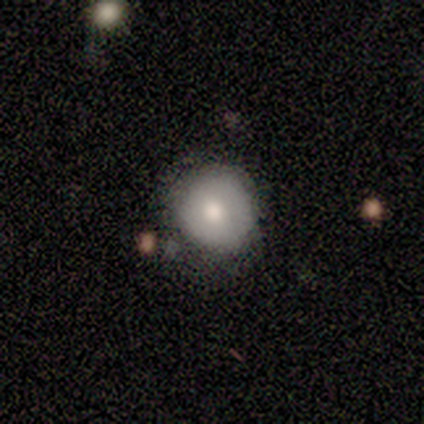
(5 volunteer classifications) Overall: smooth (60%; featured or disk 40%). How rounded: round (100%). Merging: none (100%).